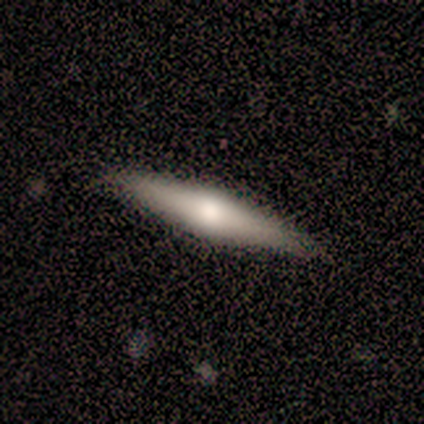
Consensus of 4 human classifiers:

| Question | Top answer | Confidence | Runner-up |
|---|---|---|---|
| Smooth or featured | smooth | 50% | tied: featured or disk (50%) |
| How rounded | cigar-shaped | 100% | — |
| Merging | none | 100% | — |